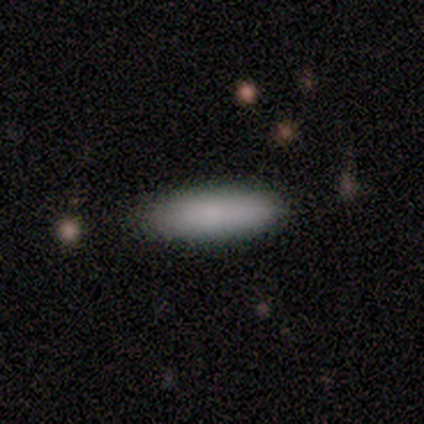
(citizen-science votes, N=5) smooth 80%, star or artifact 20%, featured or disk 0%. Down the decision tree: how rounded — in between (50%, tied with cigar-shaped); merging — none (100%).